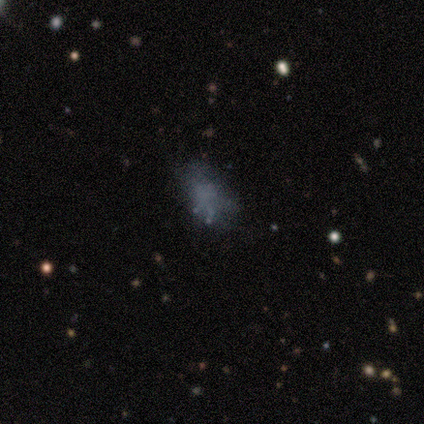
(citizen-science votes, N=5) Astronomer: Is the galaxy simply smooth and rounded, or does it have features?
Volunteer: smooth — 60%.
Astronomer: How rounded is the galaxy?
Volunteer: in between — 100%.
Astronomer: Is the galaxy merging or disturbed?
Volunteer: none — 50%.